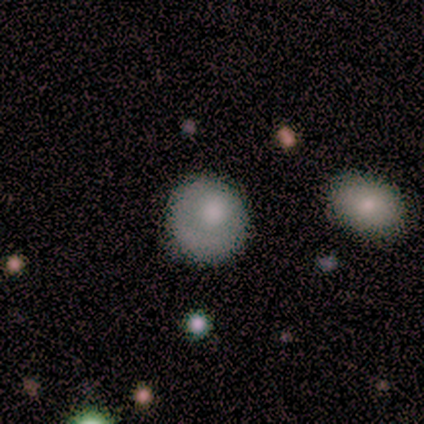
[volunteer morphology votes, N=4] Overall: smooth (75%). How rounded: round (100%). Merging: none (100%).